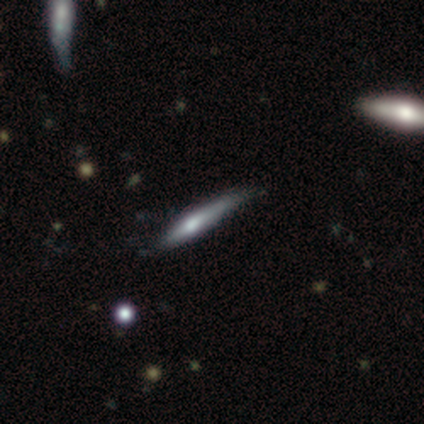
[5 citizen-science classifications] smooth_or_featured: featured or disk (p=0.60) [alt: smooth p=0.40]
disk_edge_on: yes (p=1.00)
edge_on_bulge: rounded (p=0.67) [alt: none p=0.33]
merging: none (p=0.40) [tied with: minor disturbance p=0.40]